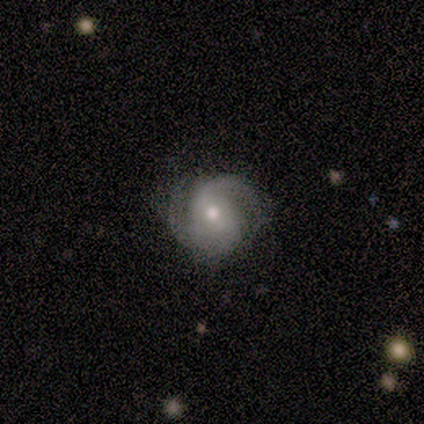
Morphology: type=featured or disk (60%); edge-on=no (100%); bar=no (67%); spiral arms=yes (100%); winding=loose (100%); arm count=2 (67%); bulge=moderate (67%); merging=none (50%, tied with minor disturbance).